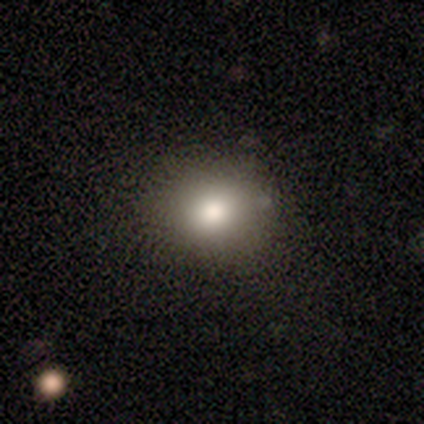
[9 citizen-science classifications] smooth_or_featured: smooth (p=1.00)
how_rounded: round (p=0.89) [alt: in between p=0.11]
merging: none (p=0.89) [alt: minor disturbance p=0.11]